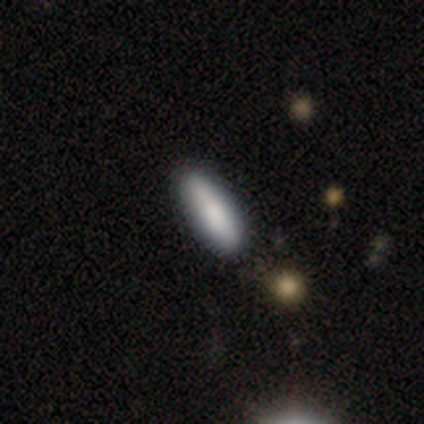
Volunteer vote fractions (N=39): A smooth galaxy with no disk features (87%) that is in between round and cigar-shaped (50%, tied with cigar-shaped).

Vote fractions:
- Smooth or featured? smooth: 87% / featured or disk: 13% / star or artifact: 0%
- How rounded? in between: 50% (tied) / cigar-shaped: 50% (tied) / round: 0%
- Merging? none: 74% / minor disturbance: 5% / major disturbance: 3% / merger: 3%